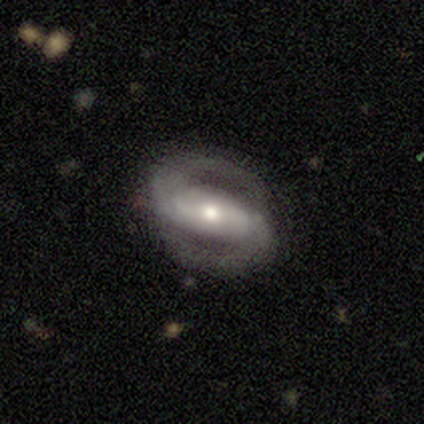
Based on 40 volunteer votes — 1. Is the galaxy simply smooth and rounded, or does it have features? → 92% featured or disk, 5% smooth, 2% star or artifact.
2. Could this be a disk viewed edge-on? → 100% no, 0% yes.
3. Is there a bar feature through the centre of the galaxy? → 59% strong, 22% weak, 19% no.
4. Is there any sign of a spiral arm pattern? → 89% yes, 11% no.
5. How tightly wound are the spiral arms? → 48% medium, 33% tight, 18% loose.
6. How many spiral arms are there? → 100% 2, 0% 1, 0% 3, 0% 4, 0% more than 4, 0% can't tell.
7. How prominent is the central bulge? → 76% moderate, 11% large, 8% small, 3% dominant, 3% none.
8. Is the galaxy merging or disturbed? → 97% none, 3% major disturbance, 0% minor disturbance, 0% merger.